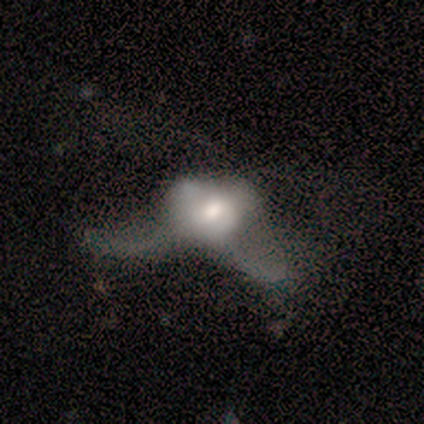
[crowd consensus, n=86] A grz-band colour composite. It shows a featured or disk galaxy (52%) with no bar (86%), no spiral arms (70%) and a moderate central bulge (45%). Merging: major disturbance (58%).